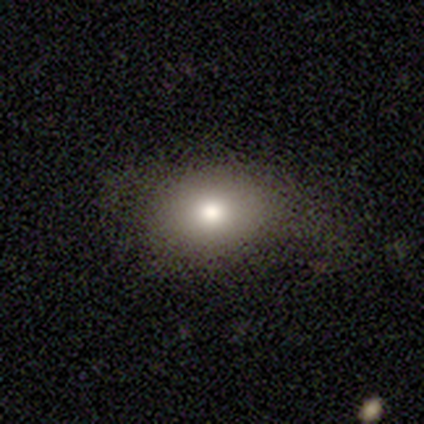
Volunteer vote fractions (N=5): This appears to be a smooth galaxy with no disk features (60%) that is in between round and cigar-shaped (100%). Merging: none (75%).